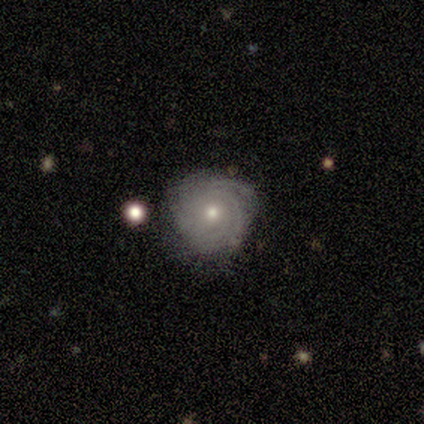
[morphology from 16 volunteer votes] Smooth or featured? featured or disk (75%)
Edge-on disk? no (100%)
Bar? no (58%)
Spiral arms? yes (100%)
Spiral winding? tight (67%)
Spiral arm count? 3 (33%, tied with can't tell)
Bulge size? small (58%)
Merging? none (93%)